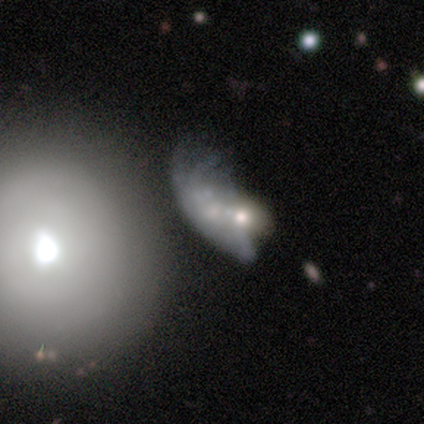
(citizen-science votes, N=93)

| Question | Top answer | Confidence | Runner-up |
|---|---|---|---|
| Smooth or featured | featured or disk | 56% | smooth (33%) |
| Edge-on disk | no | 98% | yes (2%) |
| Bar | no | 94% | weak (4%) |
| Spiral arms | no | 67% | yes (33%) |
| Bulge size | moderate | 45% | small (31%) |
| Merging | major disturbance | 40% | tied: merger (40%) |